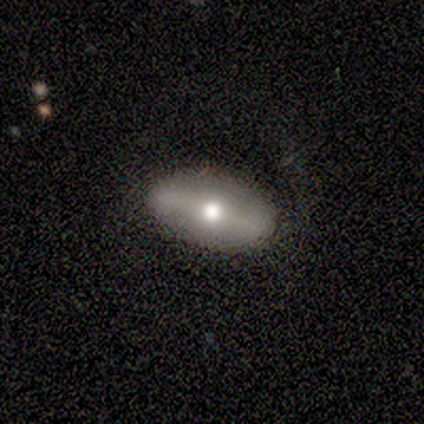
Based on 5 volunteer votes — Volunteers were most divided on "edge-on bulge" (2-way tie): boxy: 50%, rounded: 50%, none: 0%. More confident: merging — none (80%); edge-on disk — yes (67%); smooth or featured — featured or disk (60%).